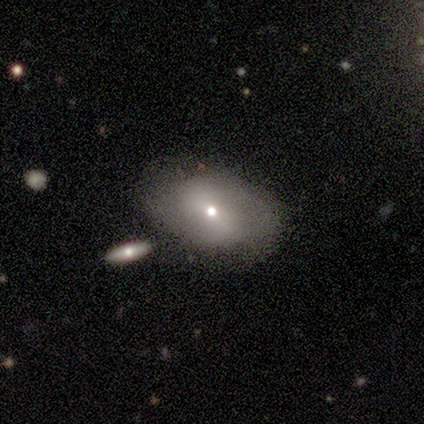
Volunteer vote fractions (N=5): Smooth or featured? featured or disk (80%)
Edge-on disk? no (100%)
Bar? weak (50%)
Spiral arms? no (75%)
Bulge size? small (75%)
Merging? none (50%, tied with minor disturbance)